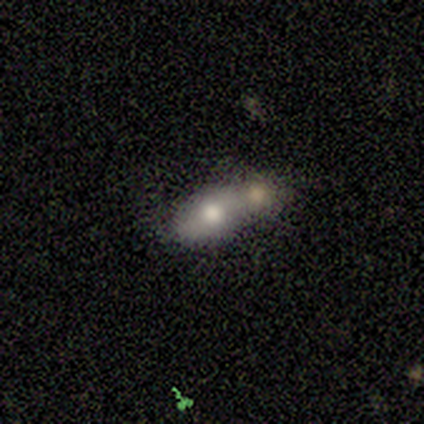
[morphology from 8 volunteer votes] Volunteers were most divided on "smooth or featured": smooth: 62%, featured or disk: 38%, star or artifact: 0%. More confident: how rounded — in between (80%); merging — merger (75%).